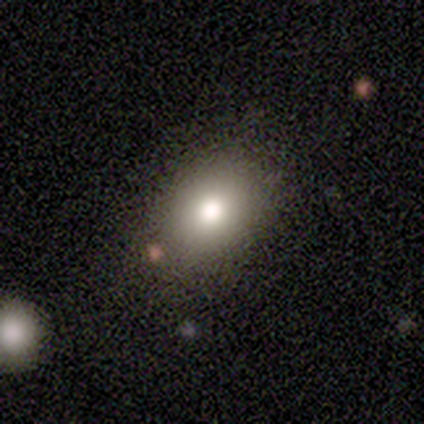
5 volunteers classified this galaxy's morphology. This appears to be a smooth galaxy with no disk features (40%, tied with featured or disk) that is in between round and cigar-shaped (100%). Merging: none (50%).